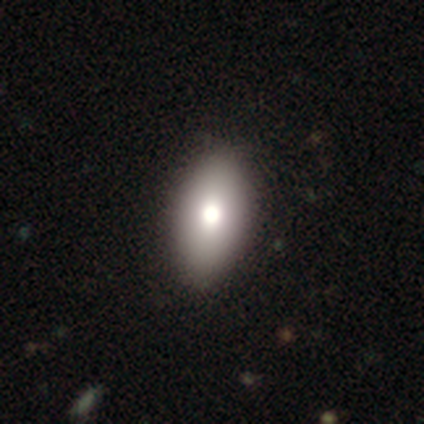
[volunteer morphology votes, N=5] Smooth or featured?
  - smooth: 80% *
  - featured or disk: 20%
  - star or artifact: 0%
How rounded?
  - in between: 100% *
  - round: 0%
  - cigar-shaped: 0%
Merging?
  - none: 80% *
  - minor disturbance: 20%
  - major disturbance: 0%
  - merger: 0%